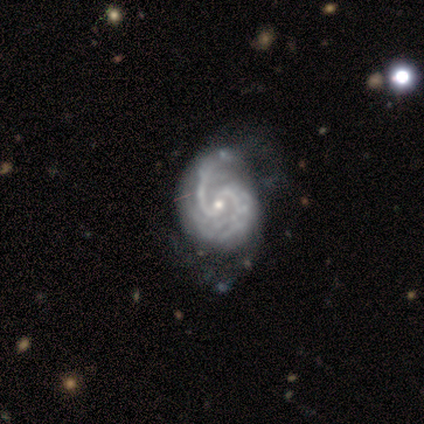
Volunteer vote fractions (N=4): Morphology: type=featured or disk (100%); edge-on=no (100%); bar=weak (50%, tied with no); spiral arms=yes (100%); winding=medium (50%); arm count=2 (75%); bulge=small (100%); merging=none (75%).